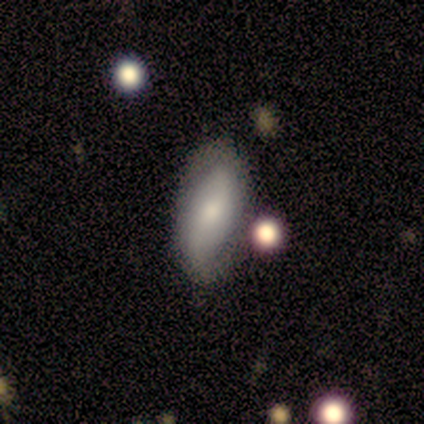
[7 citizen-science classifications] Smooth or featured? smooth (57%)
How rounded? in between (100%)
Merging? none (83%)